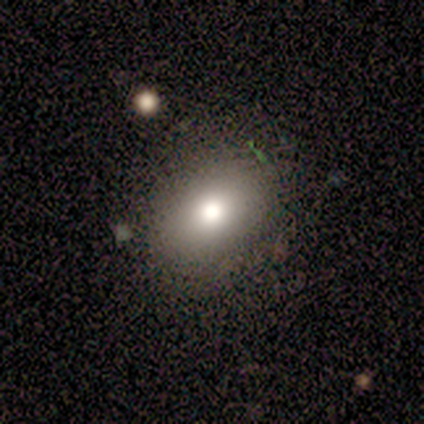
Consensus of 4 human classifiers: Overall: smooth (100%). How rounded: in between (75%). Merging: none (75%).